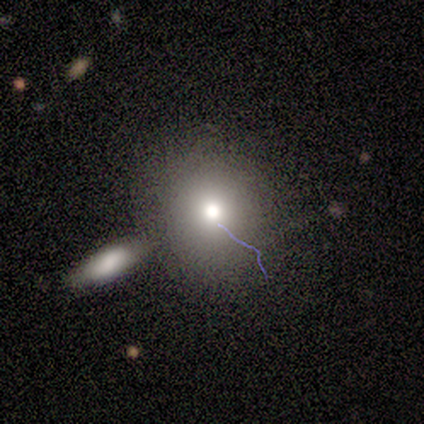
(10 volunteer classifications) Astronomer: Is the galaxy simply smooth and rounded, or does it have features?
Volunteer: smooth — 60%.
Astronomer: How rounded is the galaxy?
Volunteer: round — 83%.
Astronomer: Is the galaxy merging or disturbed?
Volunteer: none — 57%.